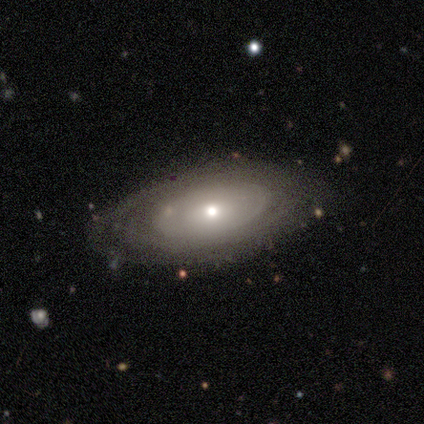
Smooth or featured?
  - smooth: 50% *
  - featured or disk: 47%
  - star or artifact: 3%
How rounded?
  - in between: 68% *
  - round: 21%
  - cigar-shaped: 11%
Merging?
  - none: 78% *
  - minor disturbance: 14%
  - major disturbance: 5%
  - merger: 3%